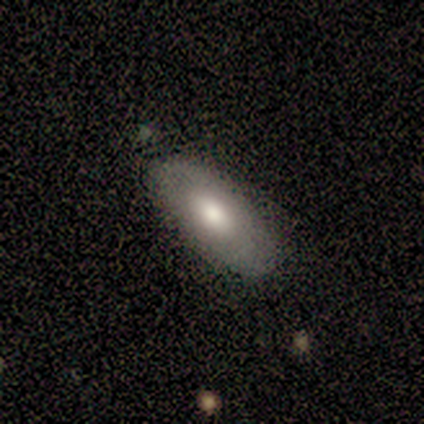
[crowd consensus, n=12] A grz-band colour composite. It shows a smooth galaxy with no disk features (67%) that is in between round and cigar-shaped (100%). Merging: none (83%).